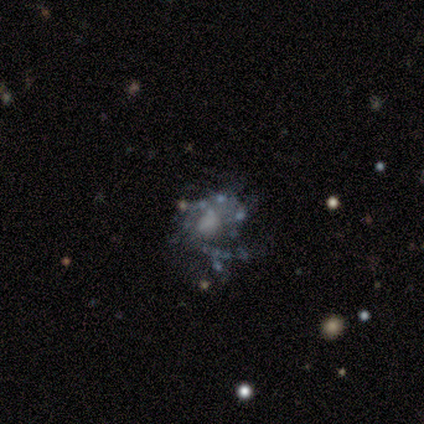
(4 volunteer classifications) smooth_or_featured: featured or disk (p=1.00)
disk_edge_on: no (p=1.00)
bar: no (p=1.00)
has_spiral_arms: yes (p=0.75) [alt: no p=0.25]
spiral_winding: loose (p=0.67) [alt: medium p=0.33]
spiral_arm_count: 2 (p=0.67) [alt: can't tell p=0.33]
bulge_size: small (p=0.50) [alt: moderate p=0.25]
merging: none (p=0.50) [alt: minor disturbance p=0.25]